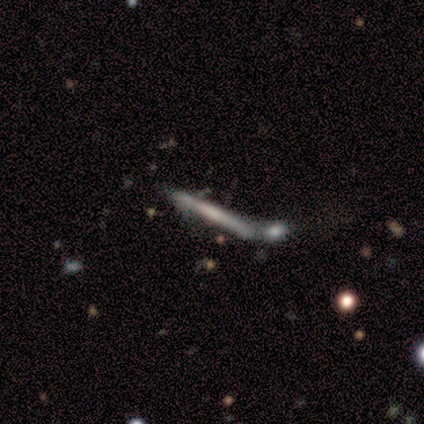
Q: Smooth or featured?
A: smooth (60%); runner-up: featured or disk (40%)
Q: How rounded?
A: cigar-shaped (100%)
Q: Merging?
A: none (40%); tied with: merger (40%)